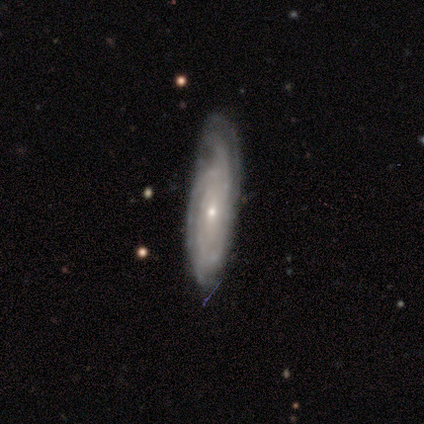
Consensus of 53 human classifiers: A featured or disk galaxy (89%) with no bar (77%), tight (82%) spiral arms (97%) and a small central bulge (74%). Merging: none (69%).